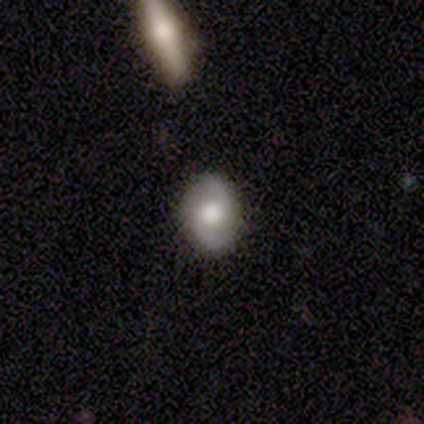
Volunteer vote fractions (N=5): A featured or disk galaxy (60%) with no bar (100%), 2 (100%) loose (100%) spiral arms (67%) and a large central bulge (100%). Merging: none (100%).